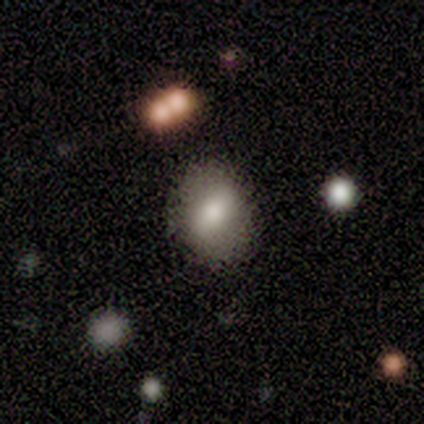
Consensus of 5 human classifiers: Smooth or featured: smooth — 100%
How rounded: in between — 60% (round — 40%)
Merging: none — 100%